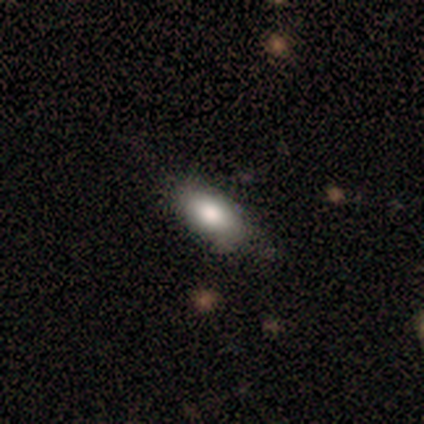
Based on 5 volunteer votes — This appears to be a smooth galaxy with no disk features (60%) that is in between round and cigar-shaped (100%). Merging: none (80%).